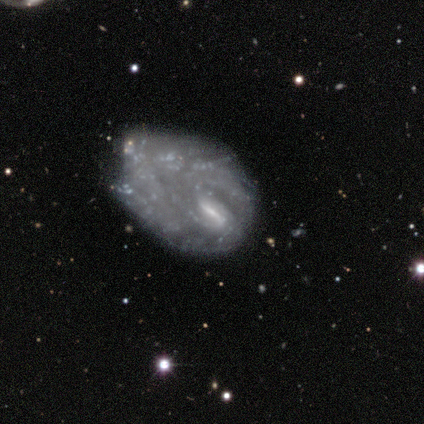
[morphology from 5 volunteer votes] This appears to be a featured or disk galaxy (100%) with a strong bar (80%), no spiral arms (60%) and a small central bulge (60%). Merging: major disturbance (60%).